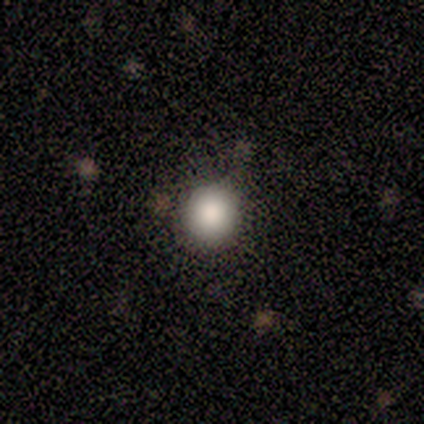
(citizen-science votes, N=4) Smooth or featured?
  - smooth: 100% *
  - featured or disk: 0%
  - star or artifact: 0%
How rounded?
  - round: 75% *
  - in between: 25%
  - cigar-shaped: 0%
Merging?
  - none: 50% * (tied)
  - minor disturbance: 50% * (tied)
  - major disturbance: 0%
  - merger: 0%